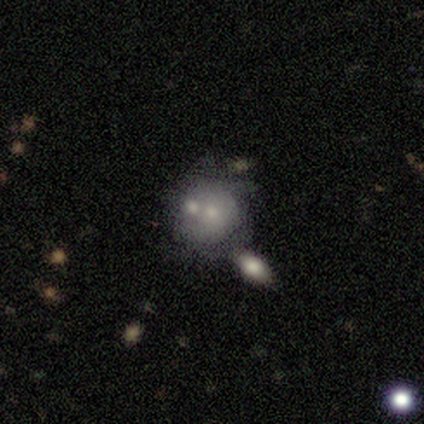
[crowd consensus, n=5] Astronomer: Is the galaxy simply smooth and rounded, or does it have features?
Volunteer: smooth — 80%.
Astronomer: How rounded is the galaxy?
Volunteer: round — 100%.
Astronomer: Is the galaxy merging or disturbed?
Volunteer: none — 60% (runner-up: merger, 40%).